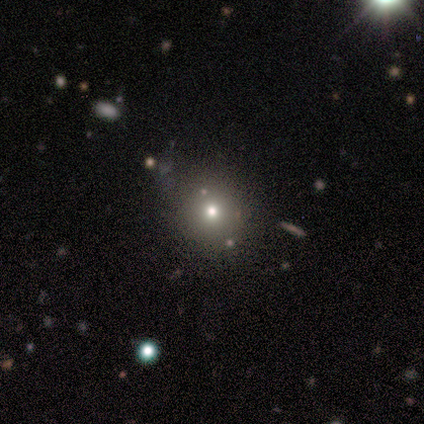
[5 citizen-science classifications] Smooth or featured? star or artifact (60%)